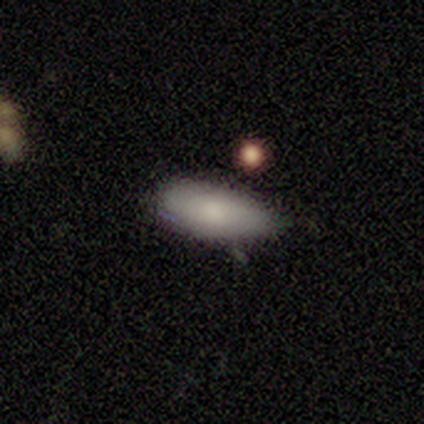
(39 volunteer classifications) smooth-or-featured: smooth: 87% | featured or disk: 13% | star or artifact: 0%
  how-rounded: in between: 94% | round: 6% | cigar-shaped: 0%
  merging: none: 69% | minor disturbance: 23% | major disturbance: 8% | merger: 0%